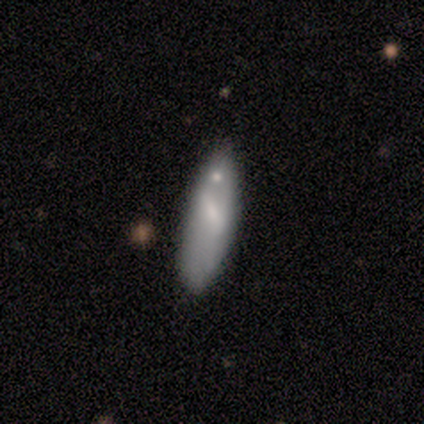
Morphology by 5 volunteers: smooth_or_featured: smooth (p=0.80) [alt: featured or disk p=0.20]
how_rounded: cigar-shaped (p=0.75) [alt: in between p=0.25]
merging: none (p=0.80) [alt: minor disturbance p=0.20]